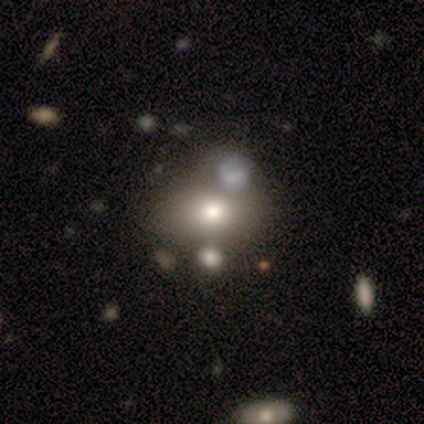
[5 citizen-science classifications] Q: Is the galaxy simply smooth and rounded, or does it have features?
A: smooth — 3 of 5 (60%).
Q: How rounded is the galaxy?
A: round — 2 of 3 (67%).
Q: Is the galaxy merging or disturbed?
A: none — 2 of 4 (50%).